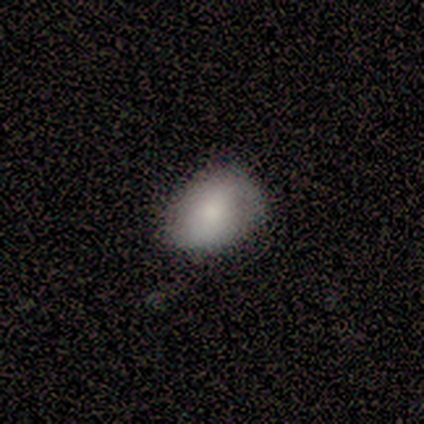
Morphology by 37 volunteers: A smooth galaxy with no disk features (84%) that is in between round and cigar-shaped (84%). Merging: none (73%).